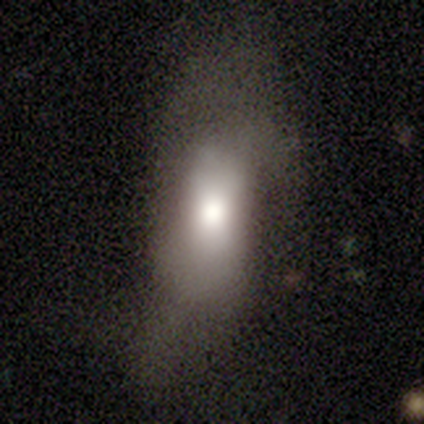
Overall: smooth (60%; featured or disk 40%). How rounded: in between (67%; cigar-shaped 33%). Merging: major disturbance (60%; none 40%).